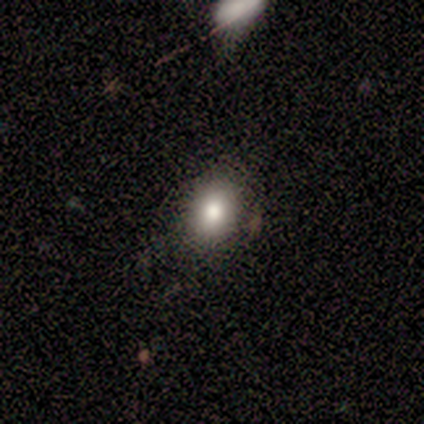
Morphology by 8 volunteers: Overall: smooth (88%). How rounded: in between (57%; round 43%). Merging: none (88%).